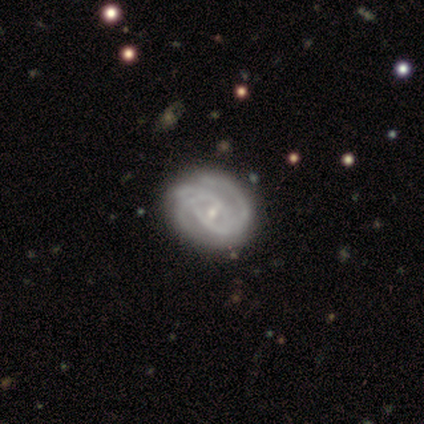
Volunteers were most divided on "spiral arm count" (2-way tie): 2: 50%, 3: 50%, 1: 0%, 4: 0%, more than 4: 0%, can't tell: 0%. More confident: smooth or featured — featured or disk (100%); spiral winding — tight (100%); bulge size — small (100%); edge-on disk — no (75%); bar — weak (67%); spiral arms — yes (67%); merging — none (50%).